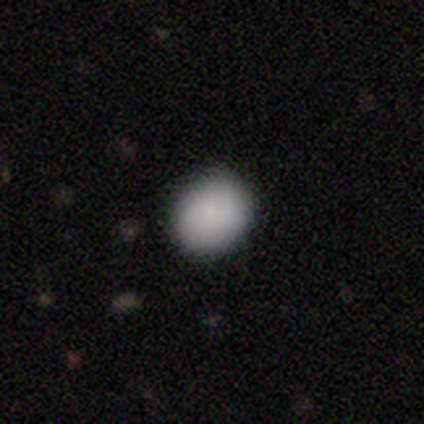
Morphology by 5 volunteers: smooth-or-featured: smooth: 100% | featured or disk: 0% | star or artifact: 0%
  how-rounded: round: 60% | in between: 40% | cigar-shaped: 0%
  merging: none: 100% | minor disturbance: 0% | major disturbance: 0% | merger: 0%